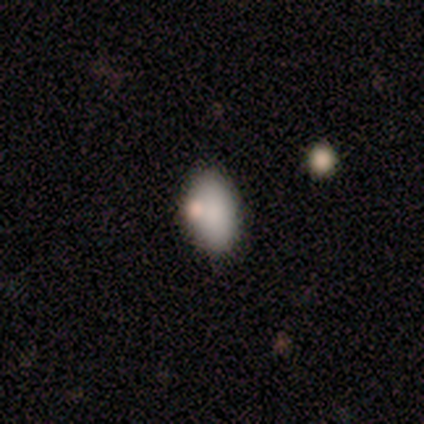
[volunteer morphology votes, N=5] Overall: smooth (100%). How rounded: in between (60%; round 20%). Merging: none (60%; minor disturbance 40%).